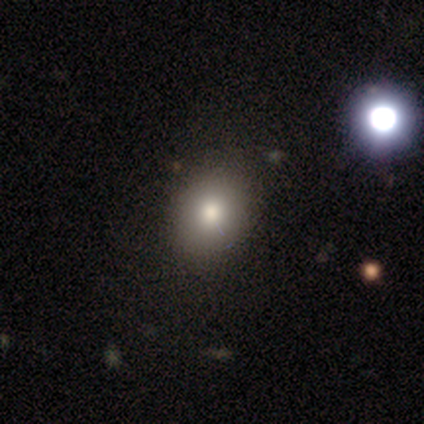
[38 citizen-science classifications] Q: Smooth or featured?
A: smooth (61%); runner-up: star or artifact (29%)
Q: How rounded?
A: round (83%); runner-up: in between (17%)
Q: Merging?
A: none (74%); runner-up: major disturbance (15%)